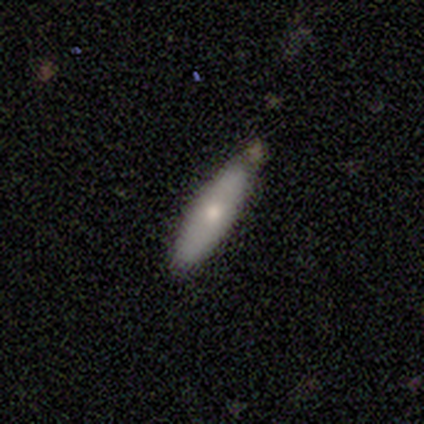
Smooth or featured? 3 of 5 (60%) said smooth. How rounded? 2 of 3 (67%) said in between. Merging? 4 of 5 (80%) said none.